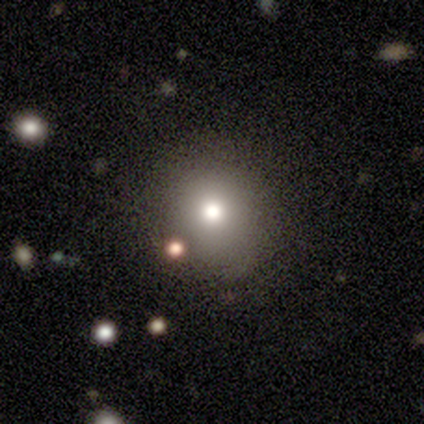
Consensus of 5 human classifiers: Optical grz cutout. It shows a smooth galaxy with no disk features (40%, tied with star or artifact) that is round (100%). Merging: none (100%).